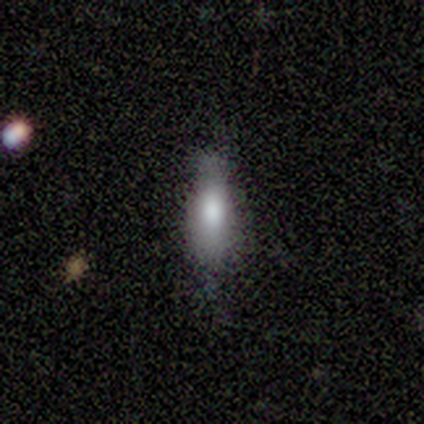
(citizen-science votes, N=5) Volunteers were most divided on "smooth or featured" (2-way tie): smooth: 40%, featured or disk: 40%, star or artifact: 20%; "how rounded" (2-way tie): in between: 50%, cigar-shaped: 50%, round: 0%. More confident: merging — none (50%).